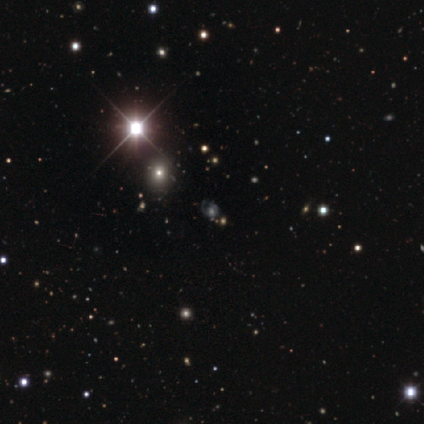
Q: Smooth or featured?
A: featured or disk (60%); runner-up: smooth (20%)
Q: Edge-on disk?
A: no (100%)
Q: Bar?
A: no (100%)
Q: Spiral arms?
A: yes (100%)
Q: Spiral winding?
A: medium (100%)
Q: Spiral arm count?
A: 1 (33%); tied with: 2 (33%); can't tell (33%)
Q: Bulge size?
A: large (33%); tied with: small (33%); none (33%)
Q: Merging?
A: major disturbance (75%); runner-up: minor disturbance (25%)